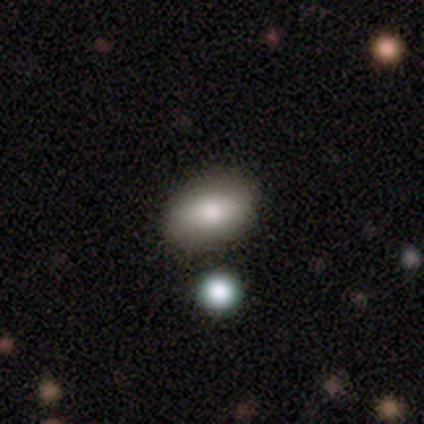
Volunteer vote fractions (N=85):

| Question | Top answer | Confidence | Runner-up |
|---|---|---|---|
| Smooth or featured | smooth | 78% | featured or disk (15%) |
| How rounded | in between | 94% | round (5%) |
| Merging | none | 76% | minor disturbance (15%) |